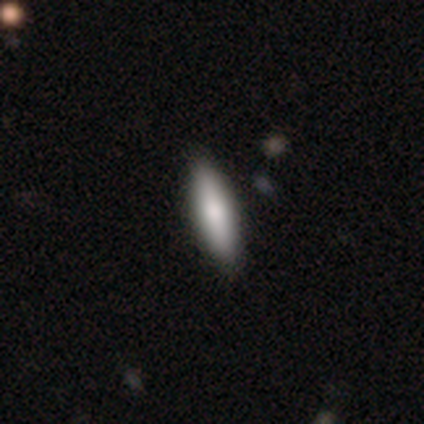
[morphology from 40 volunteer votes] Smooth or featured?
  - smooth: 78% *
  - featured or disk: 15%
  - star or artifact: 8%
How rounded?
  - cigar-shaped: 58% *
  - in between: 42%
  - round: 0%
Merging?
  - none: 78% *
  - minor disturbance: 3%
  - major disturbance: 3%
  - merger: 0%